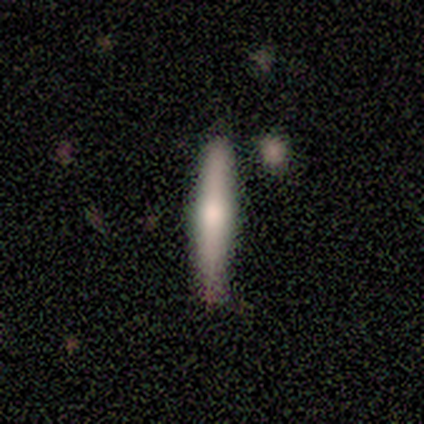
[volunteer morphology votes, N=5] smooth_or_featured: featured or disk (p=0.80) [alt: star or artifact p=0.20]
disk_edge_on: yes (p=1.00)
edge_on_bulge: rounded (p=1.00)
merging: none (p=1.00)